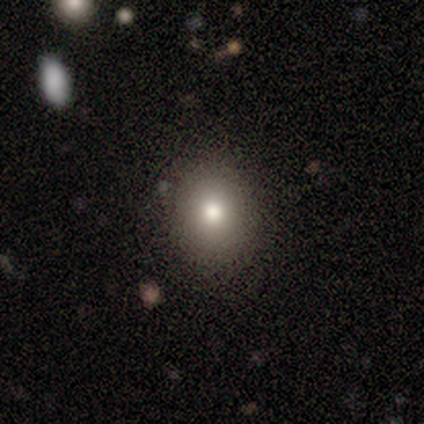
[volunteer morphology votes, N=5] type=smooth (60%); roundness=round (67%); merging=none (100%).